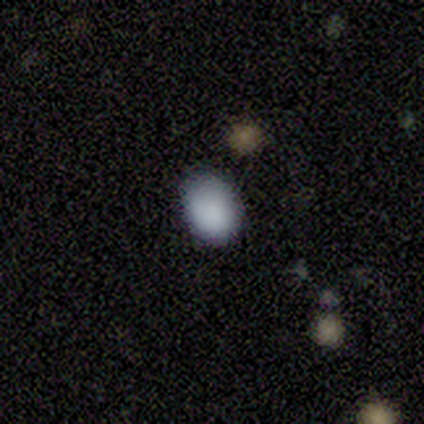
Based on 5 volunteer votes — A smooth galaxy with no disk features (80%) that is in between round and cigar-shaped (100%). Merging: none (100%).